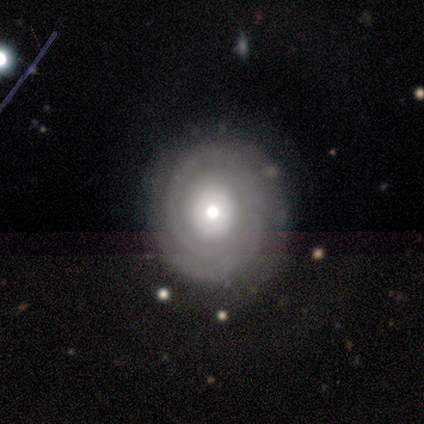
Overall: featured or disk (100%). Edge-on disk: no (100%). Bar: no (100%). Spiral arms: yes (100%). Spiral arm count: 2 (40%; 1 20%). Spiral winding: tight (100%). Bulge size: moderate (80%). Merging: none (80%).